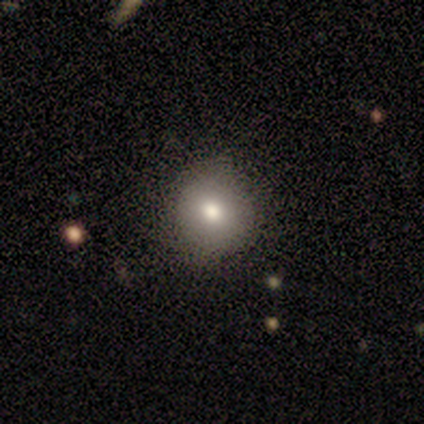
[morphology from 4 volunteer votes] Smooth or featured? smooth (75%)
How rounded? round (67%)
Merging? none (75%)